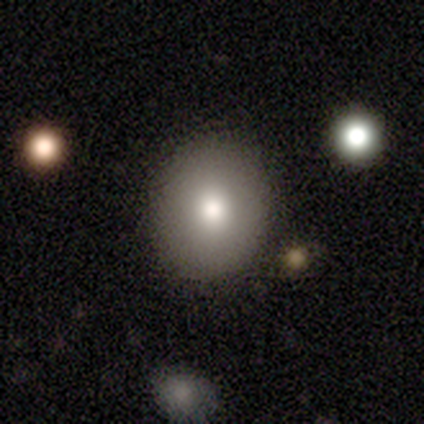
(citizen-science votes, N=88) A smooth galaxy with no disk features (76%) that is round (81%).

Vote fractions:
- Smooth or featured? smooth: 76% / featured or disk: 15% / star or artifact: 9%
- How rounded? round: 81% / in between: 18% / cigar-shaped: 1%
- Merging? none: 96% / minor disturbance: 2% / major disturbance: 1% / merger: 0%